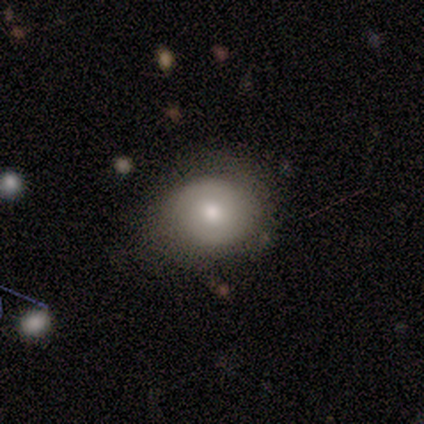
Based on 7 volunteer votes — featured or disk 57%, smooth 43%, star or artifact 0%. Down the decision tree: edge-on disk — no (100%); bar — no (75%); spiral arms — yes (75%); spiral arm count — 2 (67%); spiral winding — tight (67%); bulge size — moderate (50%); merging — none (86%).